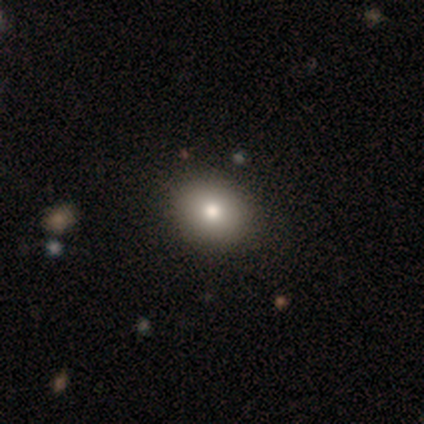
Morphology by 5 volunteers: A smooth galaxy with no disk features (40%, tied with featured or disk) that is round (50%, tied with in between). Merging: none (100%).